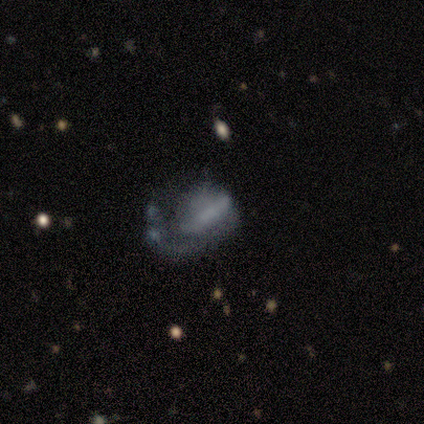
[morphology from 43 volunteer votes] A featured or disk galaxy (67%) with a strong bar (35%, tied with weak), 1 (93%) medium (47%) spiral arms (58%) and no central bulge (77%). Merging: major disturbance (57%).